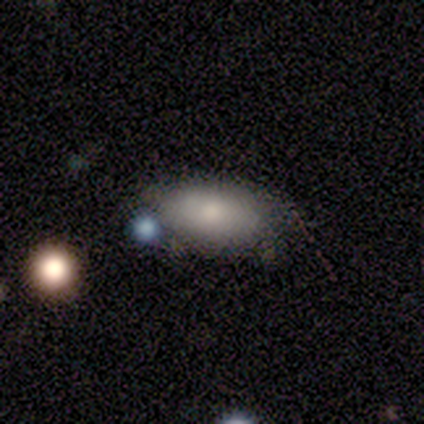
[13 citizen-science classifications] Smooth or featured? smooth (77%)
How rounded? in between (100%)
Merging? none (58%)